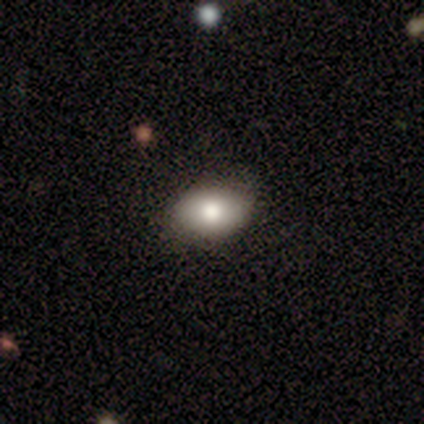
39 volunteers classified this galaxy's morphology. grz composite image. It shows a smooth galaxy with no disk features (72%) that is in between round and cigar-shaped (71%). Merging: none (88%).